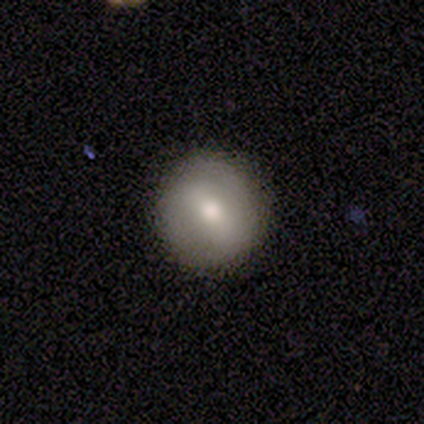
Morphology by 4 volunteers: smooth_or_featured: smooth (p=0.75) [alt: featured or disk p=0.25]
how_rounded: round (p=1.00)
merging: none (p=0.75) [alt: major disturbance p=0.25]